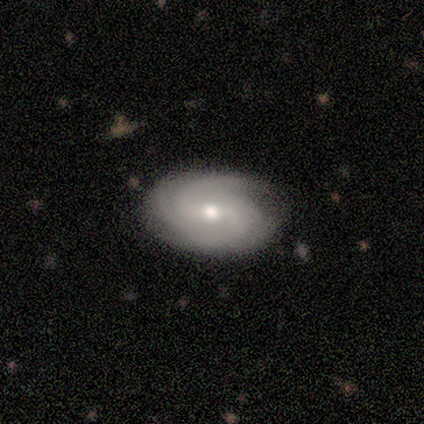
Volunteers were most divided on "bulge size": small: 50%, moderate: 25%, none: 25%, dominant: 0%, large: 0%. More confident: smooth or featured — featured or disk (100%); edge-on disk — no (100%); spiral arms — yes (100%); bar — no (75%); spiral winding — tight (75%); spiral arm count — can't tell (75%); merging — none (75%).